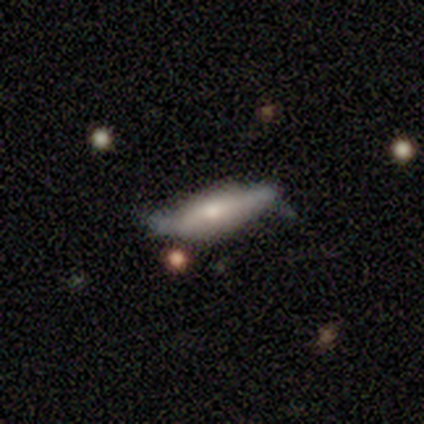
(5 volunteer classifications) Smooth or featured: featured or disk — 60% (smooth — 40%)
Edge-on disk: yes — 67% (no — 33%)
Edge-on bulge: boxy — 100%
Merging: minor disturbance — 60% (none — 20%)